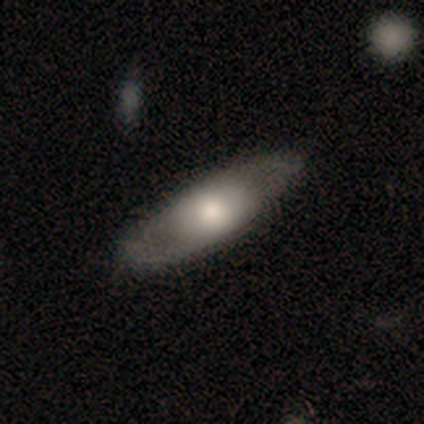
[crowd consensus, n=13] Q: Smooth or featured?
A: featured or disk (54%); runner-up: smooth (46%)
Q: Edge-on disk?
A: no (71%); runner-up: yes (29%)
Q: Bar?
A: no (100%)
Q: Spiral arms?
A: no (80%); runner-up: yes (20%)
Q: Bulge size?
A: large (40%); tied with: moderate (40%)
Q: Merging?
A: none (69%); runner-up: minor disturbance (23%)